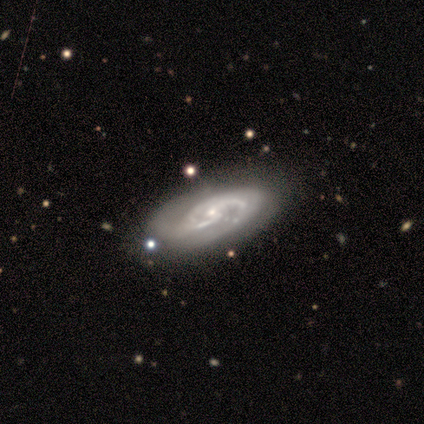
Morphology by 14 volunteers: A featured or disk galaxy (93%) with no bar (77%), 2 (67%) tight (50%) spiral arms (92%) and a small central bulge (54%).

Vote fractions:
- Smooth or featured? featured or disk: 93% / smooth: 7% / star or artifact: 0%
- Edge-on disk? no: 100% / yes: 0%
- Bar? no: 77% / weak: 15% / strong: 8%
- Spiral arms? yes: 92% / no: 8%
- Spiral winding? tight: 50% / medium: 42% / loose: 8%
- Spiral arm count? 2: 67% / 1: 8% / 3: 8% / 4: 8% / can't tell: 8% / more than 4: 0%
- Bulge size? small: 54% / moderate: 46% / dominant: 0% / large: 0% / none: 0%
- Merging? none: 86% / minor disturbance: 7% / merger: 7% / major disturbance: 0%